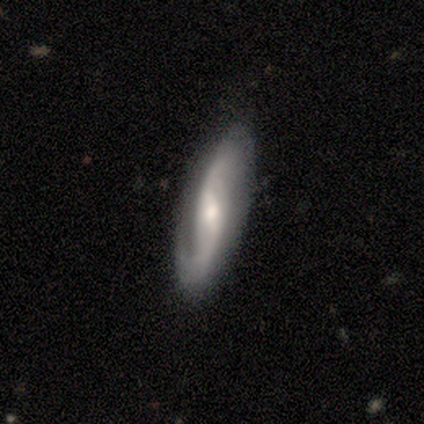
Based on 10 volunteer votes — smooth_or_featured: featured or disk (p=1.00)
disk_edge_on: no (p=0.90) [alt: yes p=0.10]
bar: weak (p=0.89) [alt: strong p=0.11]
has_spiral_arms: yes (p=1.00)
spiral_winding: medium (p=0.44) [alt: tight p=0.33]
spiral_arm_count: 2 (p=1.00)
bulge_size: moderate (p=0.44) [alt: small p=0.33]
merging: none (p=0.90) [alt: minor disturbance p=0.10]